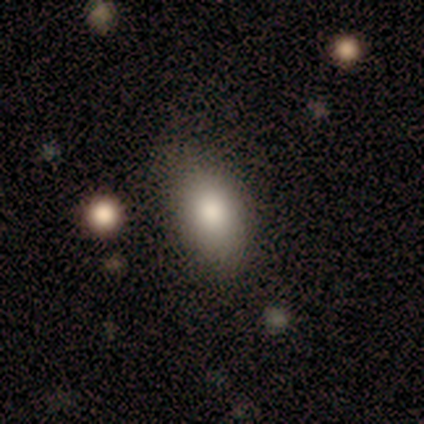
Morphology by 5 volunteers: Volunteers were most divided on "smooth or featured": smooth: 80%, star or artifact: 20%, featured or disk: 0%. More confident: how rounded — in between (100%); merging — none (100%).